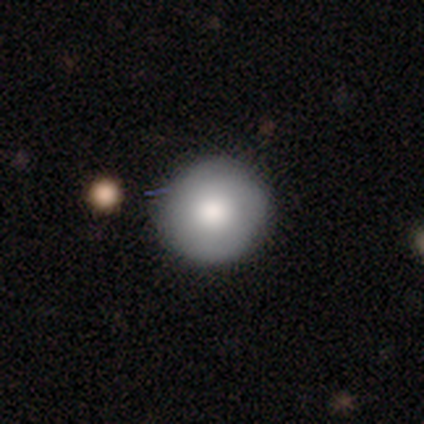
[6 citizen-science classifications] Volunteers were most divided on "smooth or featured": smooth: 67%, featured or disk: 33%, star or artifact: 0%. More confident: how rounded — round (100%); merging — none (100%).